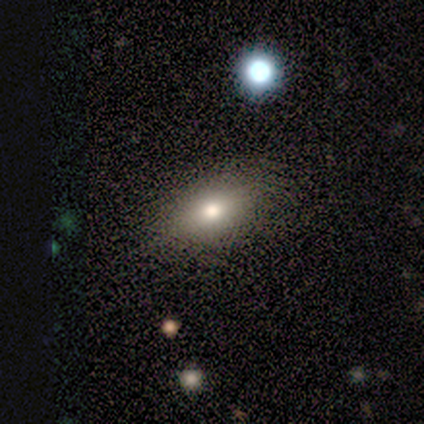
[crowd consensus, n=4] This appears to be a smooth galaxy with no disk features (75%) that is in between round and cigar-shaped (100%). Merging: none (100%).